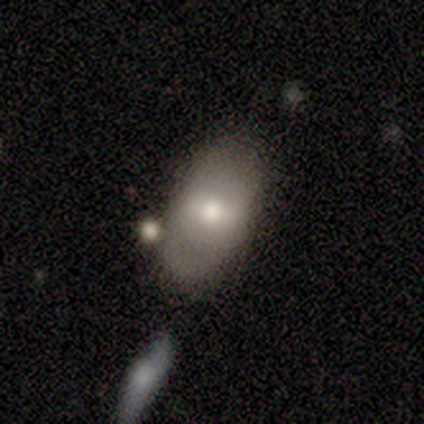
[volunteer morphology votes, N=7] type=smooth (86%); roundness=in between (83%); merging=none (57%).